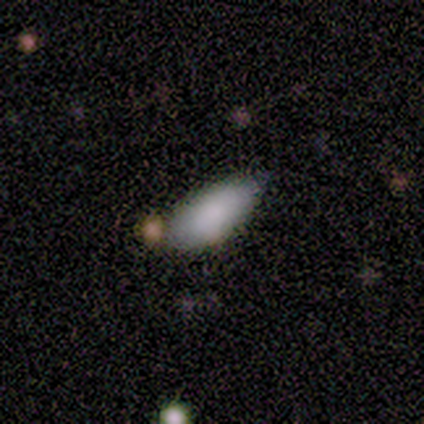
smooth 80%, star or artifact 20%, featured or disk 0%. Down the decision tree: how rounded — in between (75%); merging — none (50%, tied with minor disturbance).